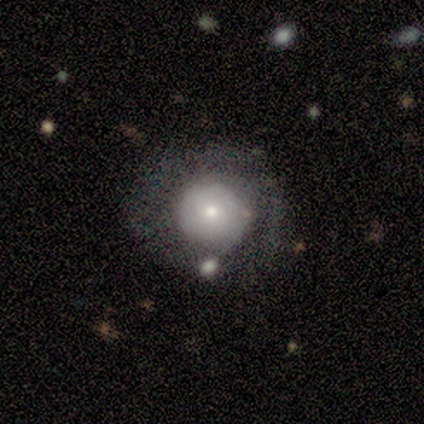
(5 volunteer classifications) This appears to be a smooth galaxy with no disk features (60%) that is round (100%). Merging: none (60%).